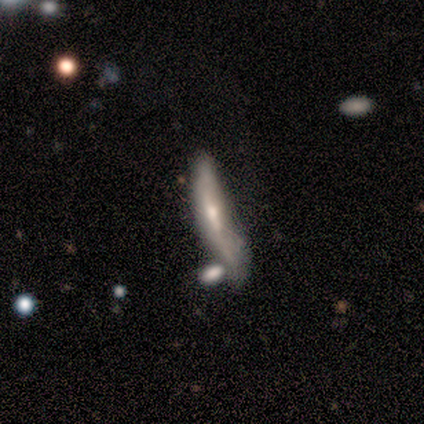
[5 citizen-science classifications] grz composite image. It shows a featured or disk galaxy (60%) viewed edge-on (67%) with no central bulge (50%, tied with rounded). Merging: major disturbance (60%).